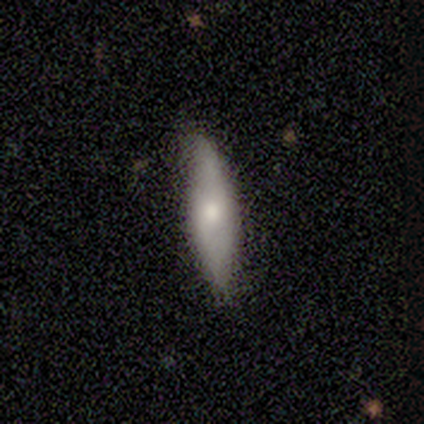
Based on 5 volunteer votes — featured or disk 60%, smooth 40%, star or artifact 0%. Down the decision tree: edge-on disk — yes (67%); edge-on bulge — boxy (50%, tied with rounded); merging — none (80%).